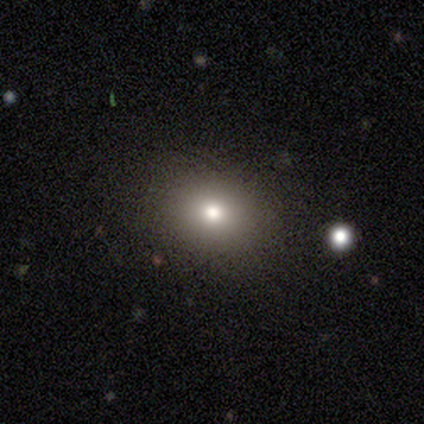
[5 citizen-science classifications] This appears to be a smooth galaxy with no disk features (100%) that is round (60%). Merging: none (100%).